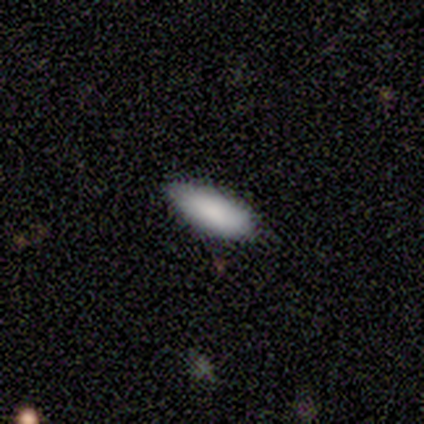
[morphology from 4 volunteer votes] Volunteers were most divided on "how rounded": in between: 75%, cigar-shaped: 25%, round: 0%. More confident: smooth or featured — smooth (100%); merging — none (75%).